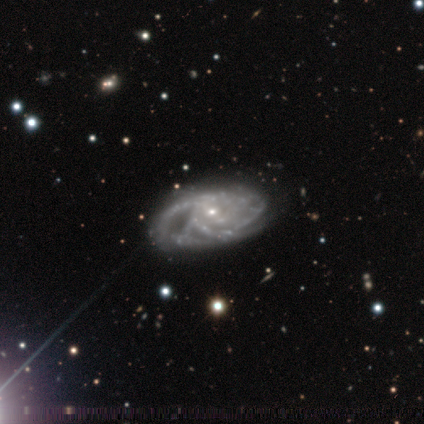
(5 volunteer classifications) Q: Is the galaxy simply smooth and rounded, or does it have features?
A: featured or disk — 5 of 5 (100%).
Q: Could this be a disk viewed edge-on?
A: no — 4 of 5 (80%).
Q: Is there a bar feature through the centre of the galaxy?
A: weak — 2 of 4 (50%).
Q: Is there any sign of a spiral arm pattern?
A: yes — 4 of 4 (100%).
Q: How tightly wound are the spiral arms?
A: tight — 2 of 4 (50%).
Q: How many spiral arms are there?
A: can't tell — 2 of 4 (50%).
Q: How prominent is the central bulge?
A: small — 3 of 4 (75%).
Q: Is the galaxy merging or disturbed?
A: none — 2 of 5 (40%, tied with minor disturbance).